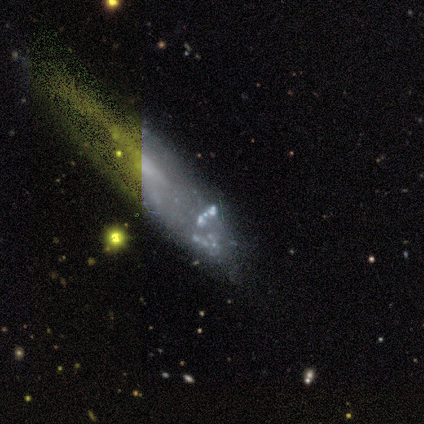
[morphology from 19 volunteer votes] A featured or disk galaxy (42%) with no bar (83%), no spiral arms (83%) and a small central bulge (50%). Merging: none (46%).